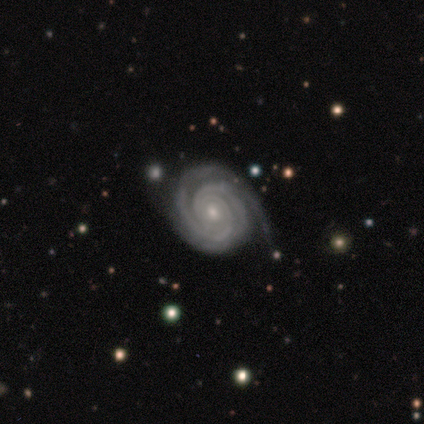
Morphology: type=featured or disk (95%); edge-on=no (100%); bar=no (82%); spiral arms=yes (100%); winding=tight (92%); arm count=2 (47%); bulge=small (61%); merging=none (79%).